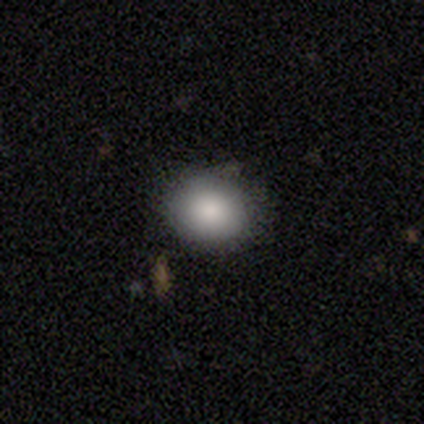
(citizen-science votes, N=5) Smooth or featured? 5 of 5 (100%) said smooth. How rounded? 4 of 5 (80%) said round. Merging? 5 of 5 (100%) said none.